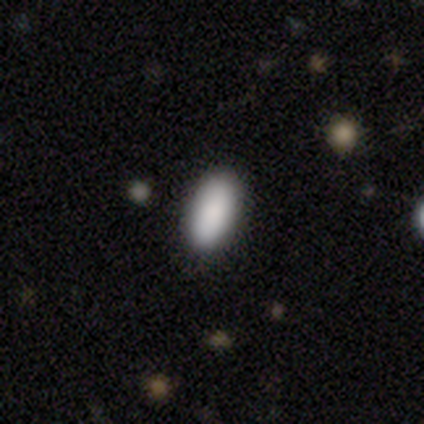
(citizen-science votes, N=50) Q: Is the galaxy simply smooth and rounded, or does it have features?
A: smooth — 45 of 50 (90%).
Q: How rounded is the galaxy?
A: in between — 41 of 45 (91%).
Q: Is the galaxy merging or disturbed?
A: none — 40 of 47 (85%).